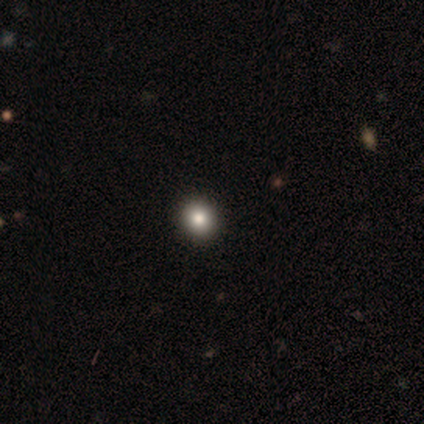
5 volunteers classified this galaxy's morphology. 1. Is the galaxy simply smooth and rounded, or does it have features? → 100% smooth, 0% featured or disk, 0% star or artifact.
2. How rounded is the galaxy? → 100% round, 0% in between, 0% cigar-shaped.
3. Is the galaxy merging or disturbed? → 100% none, 0% minor disturbance, 0% major disturbance, 0% merger.